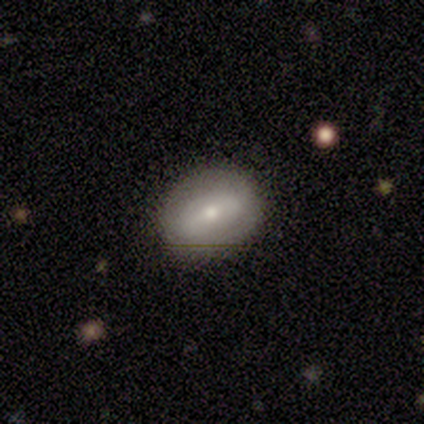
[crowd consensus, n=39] Smooth or featured?
  - smooth: 56% *
  - featured or disk: 41%
  - star or artifact: 3%
How rounded?
  - in between: 68% *
  - round: 32%
  - cigar-shaped: 0%
Merging?
  - none: 92% *
  - minor disturbance: 8%
  - major disturbance: 0%
  - merger: 0%